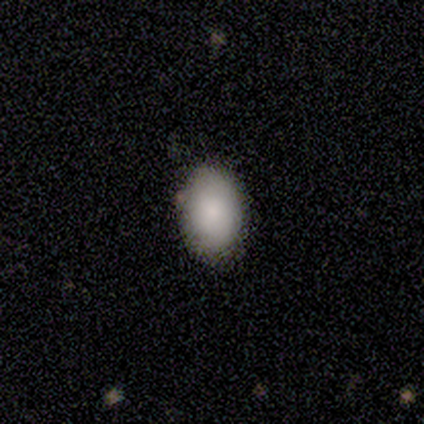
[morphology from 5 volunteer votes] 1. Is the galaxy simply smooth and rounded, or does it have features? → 100% smooth, 0% featured or disk, 0% star or artifact.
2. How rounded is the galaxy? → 80% in between, 20% round, 0% cigar-shaped.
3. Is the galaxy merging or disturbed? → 100% none, 0% minor disturbance, 0% major disturbance, 0% merger.